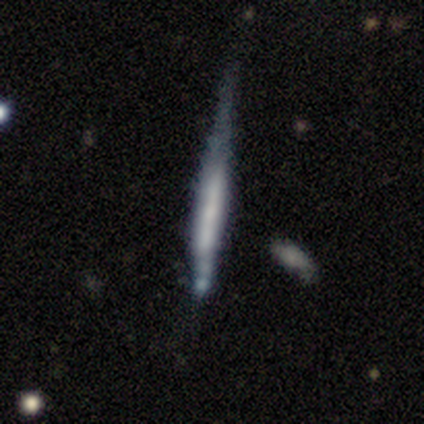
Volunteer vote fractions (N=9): Overall: featured or disk (56%; smooth 22%). Edge-on disk: yes (100%). Edge-on bulge: none (80%). Merging: none (43%; minor disturbance 29%).